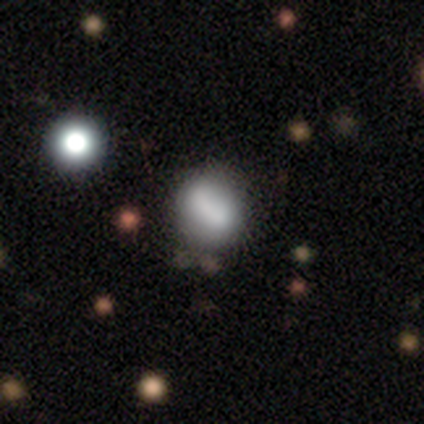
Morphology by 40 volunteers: Q: Smooth or featured?
A: smooth (62%); runner-up: featured or disk (28%)
Q: How rounded?
A: round (64%); runner-up: in between (36%)
Q: Merging?
A: none (44%); runner-up: minor disturbance (22%)